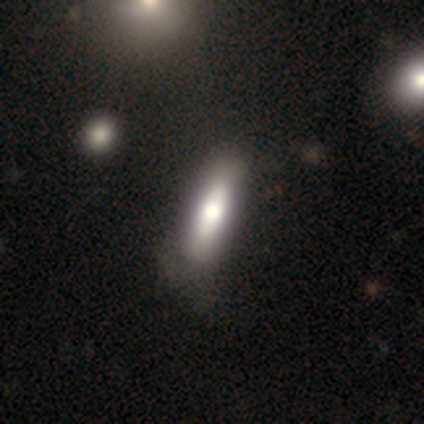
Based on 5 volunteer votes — This appears to be a smooth galaxy with no disk features (40%, tied with star or artifact) that is in between round and cigar-shaped (50%, tied with cigar-shaped). Merging: none (67%).